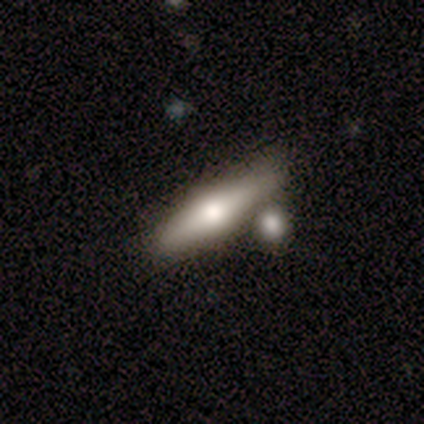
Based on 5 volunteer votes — Q: Smooth or featured?
A: smooth (80%); runner-up: featured or disk (20%)
Q: How rounded?
A: cigar-shaped (75%); runner-up: in between (25%)
Q: Merging?
A: none (40%); runner-up: minor disturbance (20%)